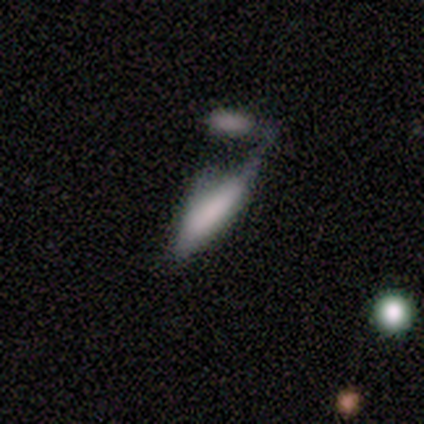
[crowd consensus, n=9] This is likely a smooth galaxy (67%). How rounded: clearly cigar-shaped (83%). Merging: possibly merger (50%).